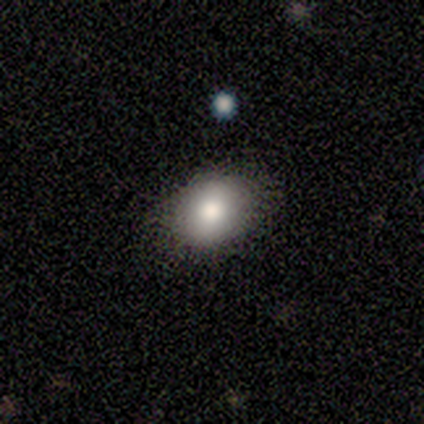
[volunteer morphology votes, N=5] This appears to be a smooth galaxy with no disk features (100%) that is round (60%). Merging: none (100%).